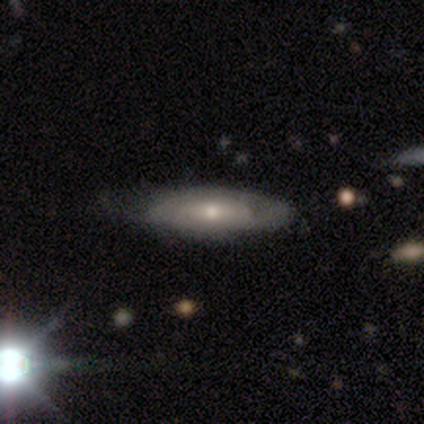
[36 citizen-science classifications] Overall: featured or disk (50%; smooth 31%). Edge-on disk: yes (50%, tied with no). Edge-on bulge: rounded (89%). Merging: none (55%; minor disturbance 28%).